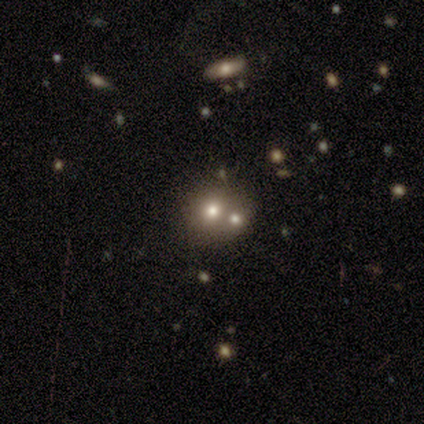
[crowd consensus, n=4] Overall: featured or disk (50%; smooth 25%). Edge-on disk: no (100%). Bar: no (100%). Spiral arms: no (100%). Bulge size: large (50%, tied with moderate). Merging: merger (67%; none 33%).